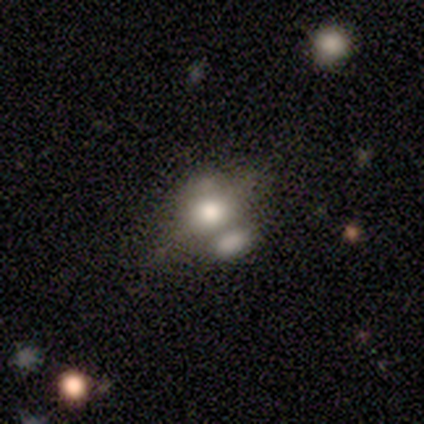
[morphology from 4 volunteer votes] Smooth or featured?
  - smooth: 50% * (tied)
  - featured or disk: 50% * (tied)
  - star or artifact: 0%
How rounded?
  - in between: 100% *
  - round: 0%
  - cigar-shaped: 0%
Merging?
  - none: 50% * (tied)
  - merger: 50% * (tied)
  - minor disturbance: 0%
  - major disturbance: 0%